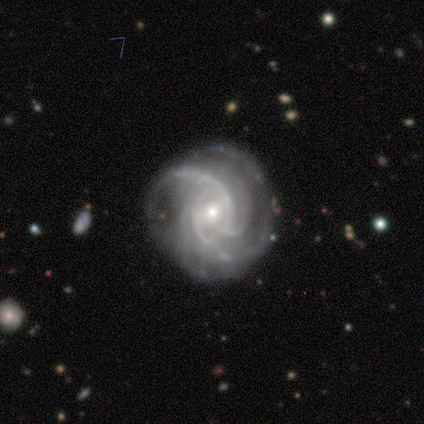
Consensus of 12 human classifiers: Overall: featured or disk (100%). Edge-on disk: no (100%). Bar: no (50%; weak 33%). Spiral arms: yes (100%). Spiral arm count: 3 (50%; 4 25%). Spiral winding: tight (75%). Bulge size: small (75%). Merging: none (67%).